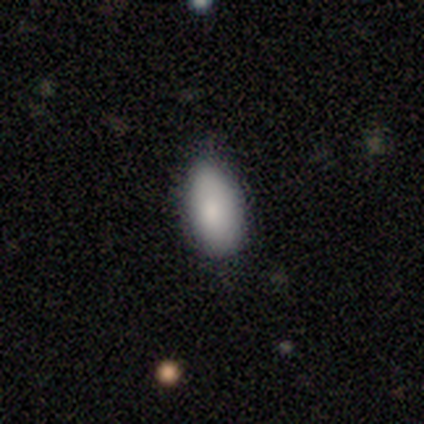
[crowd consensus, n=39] smooth 90%, featured or disk 5%, star or artifact 5%. Down the decision tree: how rounded — in between (94%); merging — none (65%).